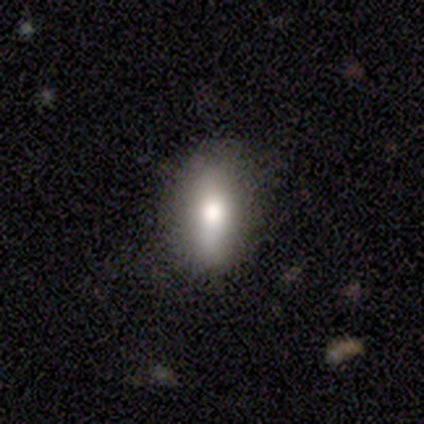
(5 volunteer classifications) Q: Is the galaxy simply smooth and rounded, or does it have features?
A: smooth — 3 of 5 (60%).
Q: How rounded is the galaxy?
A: in between — 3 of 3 (100%).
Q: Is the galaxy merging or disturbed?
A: none — 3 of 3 (100%).